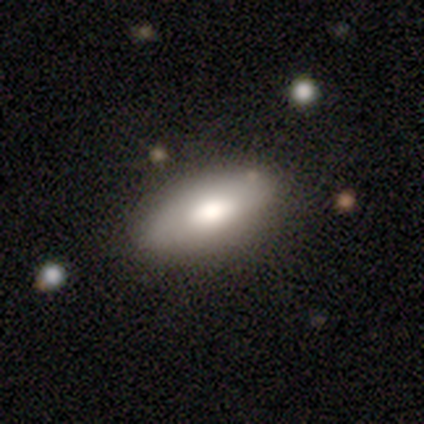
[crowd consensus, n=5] Smooth or featured? 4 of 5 (80%) said smooth. How rounded? 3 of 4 (75%) said in between. Merging? 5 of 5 (100%) said none.